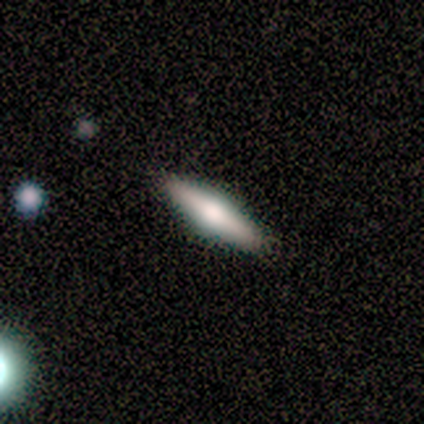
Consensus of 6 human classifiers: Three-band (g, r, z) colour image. It shows a featured or disk galaxy (83%) viewed edge-on (100%) with a rounded central bulge (100%). Merging: none (100%).